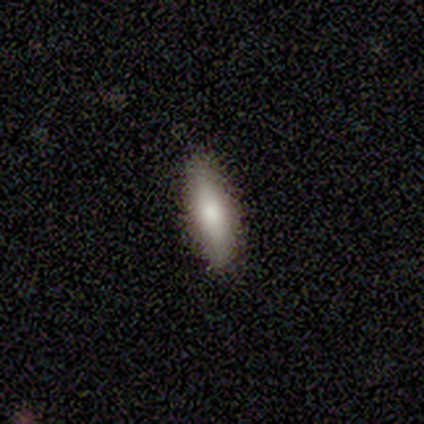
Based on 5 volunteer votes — Smooth or featured? smooth (100%)
How rounded? cigar-shaped (60%)
Merging? none (80%)